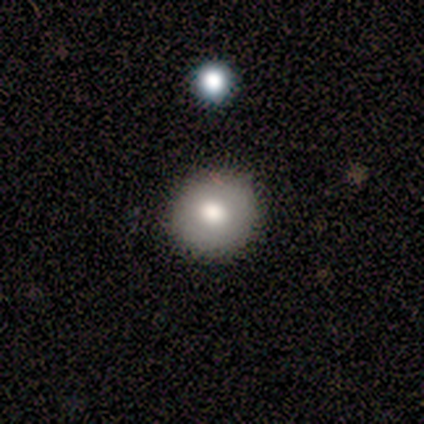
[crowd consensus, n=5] Overall: smooth (100%). How rounded: round (100%). Merging: none (100%).